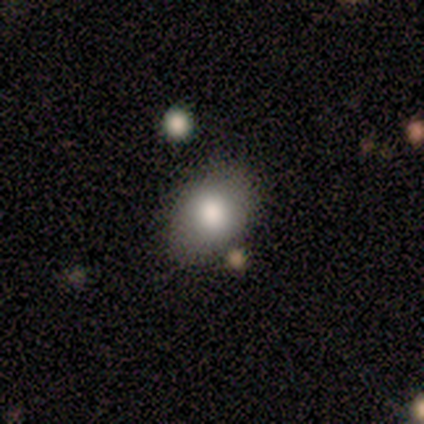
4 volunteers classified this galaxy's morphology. Smooth or featured? smooth (75%)
How rounded? in between (100%)
Merging? none (100%)